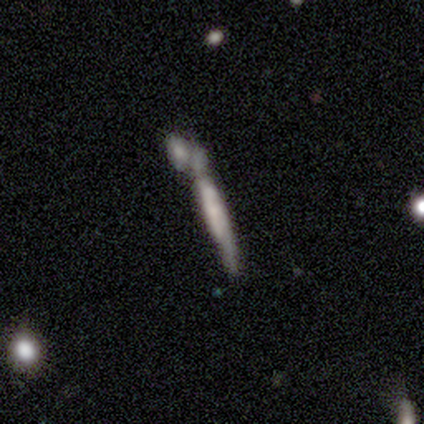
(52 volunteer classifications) smooth_or_featured: featured or disk (p=0.50) [alt: smooth p=0.44]
disk_edge_on: yes (p=0.81) [alt: no p=0.19]
edge_on_bulge: none (p=0.52) [alt: boxy p=0.33]
merging: merger (p=0.49) [alt: none p=0.20]